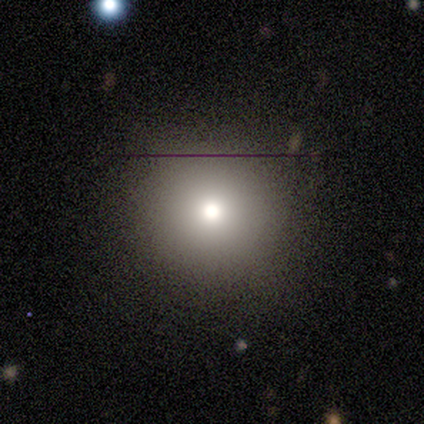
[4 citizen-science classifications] This appears to be a smooth galaxy with no disk features (100%) that is round (100%). Merging: none (100%).